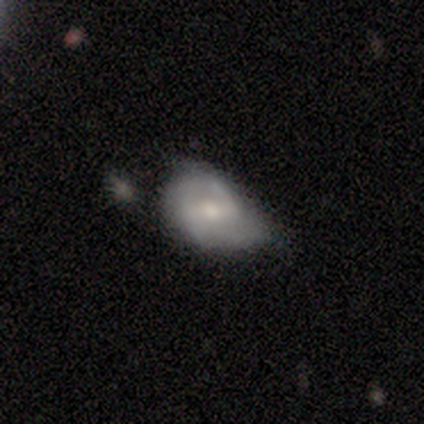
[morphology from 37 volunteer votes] Smooth or featured? 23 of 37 (62%) said featured or disk. Edge-on disk? 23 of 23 (100%) said no. Bar? 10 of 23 (43%) said weak. Spiral arms? 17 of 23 (74%) said yes. Spiral winding? 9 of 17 (53%) said medium. Spiral arm count? 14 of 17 (82%) said 2. Bulge size? 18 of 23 (78%) said moderate. Merging? 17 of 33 (52%) said minor disturbance.